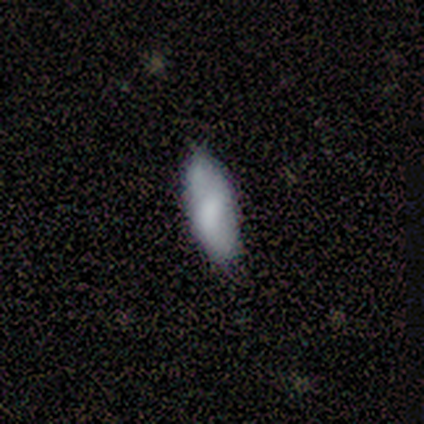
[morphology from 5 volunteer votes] Volunteers were most divided on "how rounded": in between: 80%, round: 20%, cigar-shaped: 0%. More confident: smooth or featured — smooth (100%); merging — none (80%).